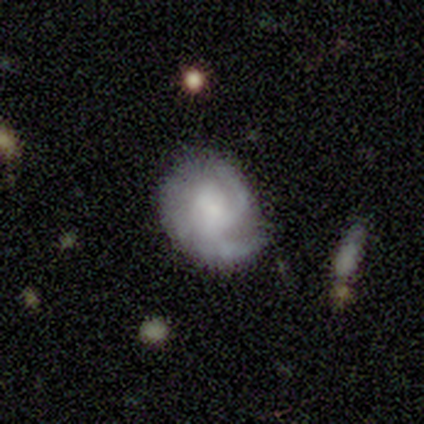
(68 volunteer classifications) Q: Smooth or featured?
A: featured or disk (71%); runner-up: smooth (25%)
Q: Edge-on disk?
A: no (98%); runner-up: yes (2%)
Q: Bar?
A: no (79%); runner-up: weak (13%)
Q: Spiral arms?
A: yes (94%); runner-up: no (6%)
Q: Spiral winding?
A: medium (55%); runner-up: tight (32%)
Q: Spiral arm count?
A: 2 (55%); runner-up: 3 (30%)
Q: Bulge size?
A: small (36%); runner-up: moderate (21%)
Q: Merging?
A: none (57%); runner-up: minor disturbance (22%)